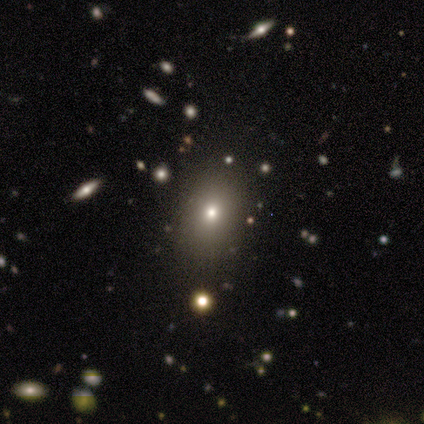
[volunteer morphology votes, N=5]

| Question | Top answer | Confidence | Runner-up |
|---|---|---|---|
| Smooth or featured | smooth | 80% | featured or disk (20%) |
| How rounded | round | 50% | tied: in between (50%) |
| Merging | none | 80% | minor disturbance (20%) |